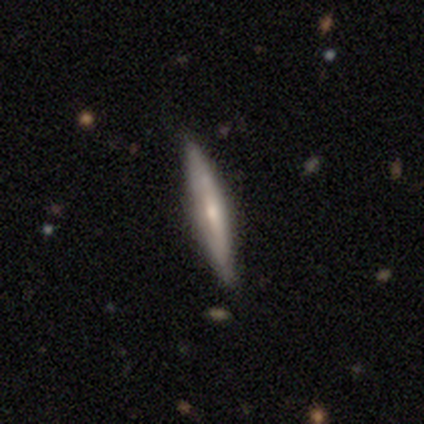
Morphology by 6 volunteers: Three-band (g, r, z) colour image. It shows a featured or disk galaxy (83%) viewed edge-on (100%) with a rounded central bulge (60%). Merging: none (100%).